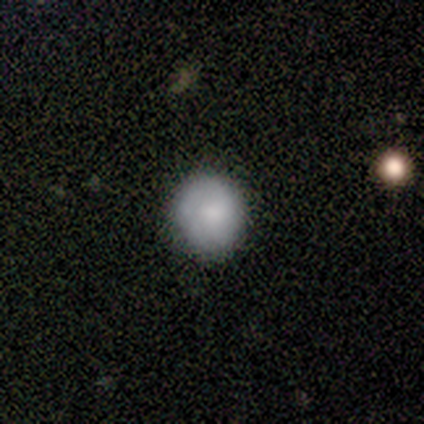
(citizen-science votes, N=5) Volunteers were most divided on "merging": none: 60%, minor disturbance: 40%, major disturbance: 0%, merger: 0%. More confident: smooth or featured — smooth (80%); how rounded — round (75%).